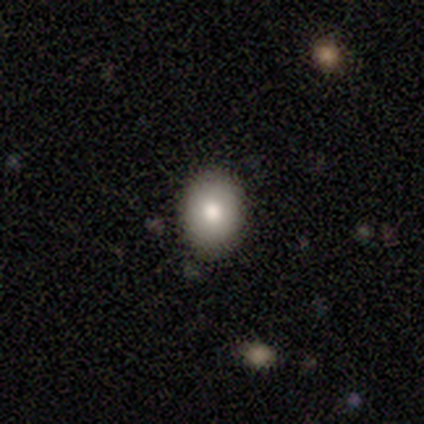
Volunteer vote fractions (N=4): Q: Smooth or featured?
A: smooth (100%)
Q: How rounded?
A: in between (75%); runner-up: round (25%)
Q: Merging?
A: none (100%)